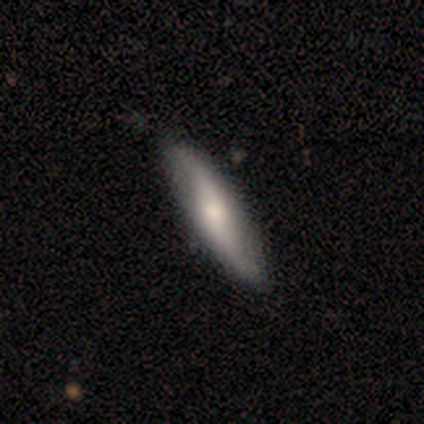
featured or disk 58%, smooth 36%, star or artifact 6%. Down the decision tree: edge-on disk — no (52%); bar — weak (55%); spiral arms — yes (91%); spiral arm count — 2 (100%); spiral winding — loose (90%); bulge size — moderate (45%); merging — none (82%).